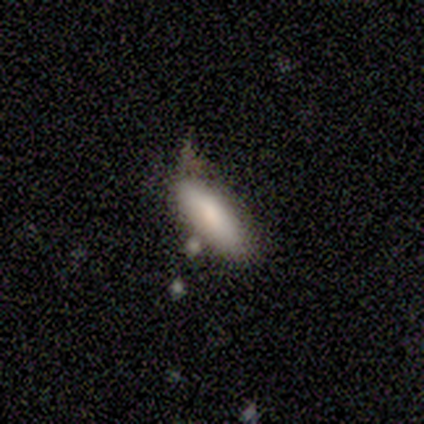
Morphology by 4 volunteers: smooth-or-featured: smooth: 100% | featured or disk: 0% | star or artifact: 0%
  how-rounded: in between: 50% (tied) | cigar-shaped: 50% (tied) | round: 0%
  merging: none: 50% (tied) | minor disturbance: 50% (tied) | major disturbance: 0% | merger: 0%